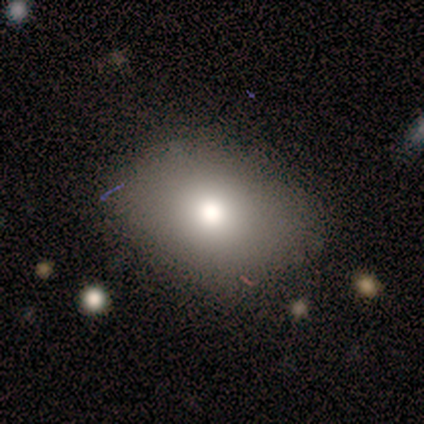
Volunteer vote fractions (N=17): smooth 94%, featured or disk 6%, star or artifact 0%. Down the decision tree: how rounded — in between (69%); merging — none (94%).